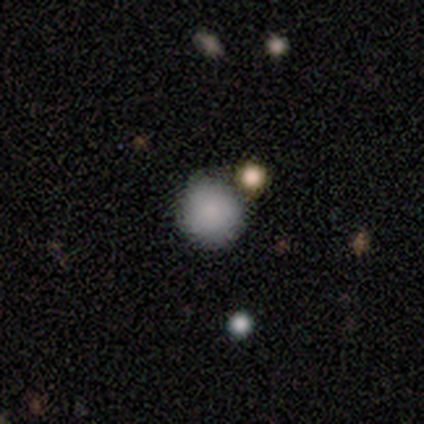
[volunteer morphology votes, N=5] smooth-or-featured: smooth: 80% | star or artifact: 20% | featured or disk: 0%
  how-rounded: round: 75% | in between: 25% | cigar-shaped: 0%
  merging: none: 75% | merger: 25% | minor disturbance: 0% | major disturbance: 0%